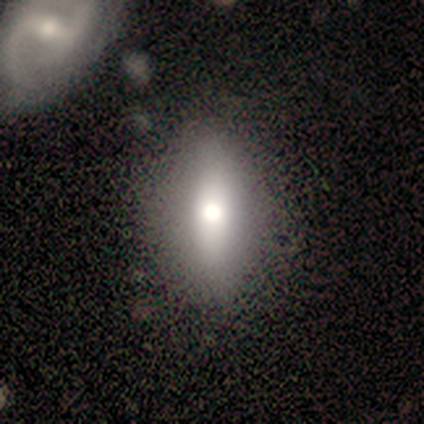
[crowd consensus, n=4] Smooth or featured? smooth (50%)
How rounded? in between (100%)
Merging? none (67%)